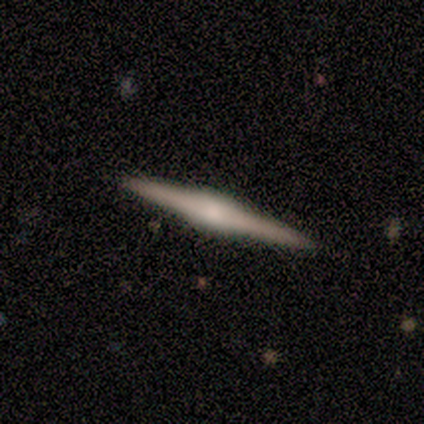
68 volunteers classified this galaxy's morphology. Volunteers were most divided on "edge-on bulge": rounded: 54%, boxy: 43%, none: 4%. More confident: edge-on disk — yes (100%); merging — none (91%); smooth or featured — featured or disk (82%).